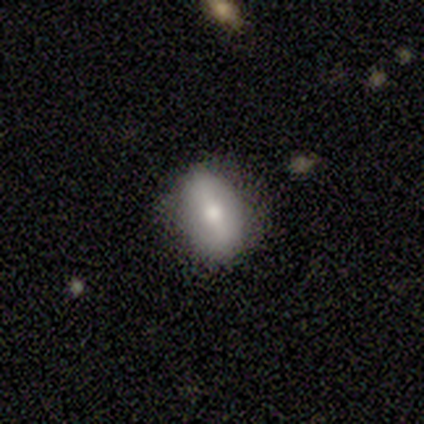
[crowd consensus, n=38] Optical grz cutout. It shows a smooth galaxy with no disk features (58%) that is in between round and cigar-shaped (77%). Merging: none (86%).